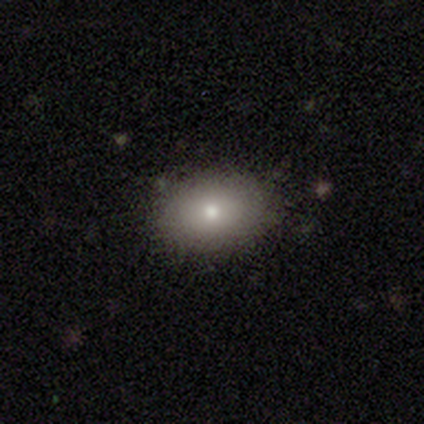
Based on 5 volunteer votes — This appears to be a smooth galaxy with no disk features (100%) that is in between round and cigar-shaped (60%). Merging: none (80%).